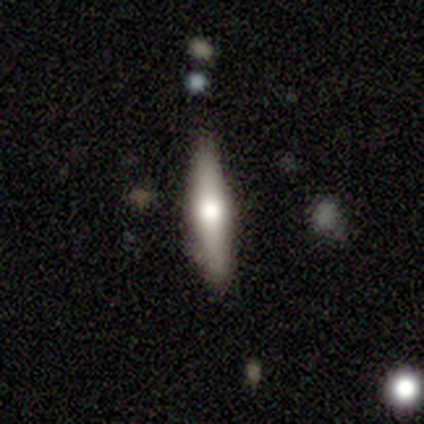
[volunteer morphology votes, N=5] Smooth or featured? featured or disk (80%)
Edge-on disk? yes (100%)
Edge-on bulge? rounded (100%)
Merging? none (100%)